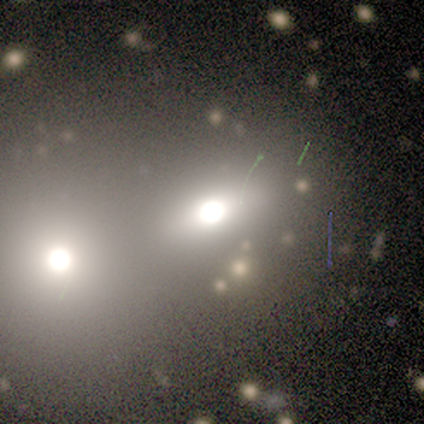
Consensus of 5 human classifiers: smooth_or_featured: smooth (p=0.60) [alt: featured or disk p=0.40]
how_rounded: in between (p=0.67) [alt: round p=0.33]
merging: merger (p=0.60) [alt: none p=0.40]